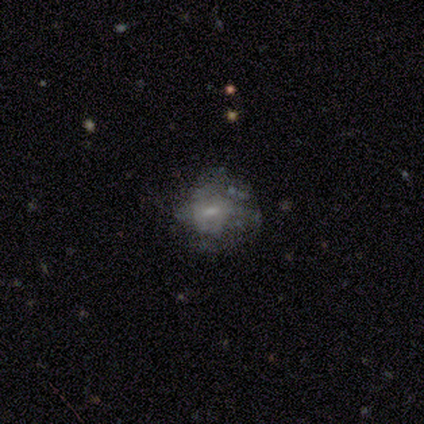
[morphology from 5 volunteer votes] This appears to be a featured or disk galaxy (60%) with a weak bar (67%), no spiral arms (100%) and a small central bulge (67%). Merging: none (50%).